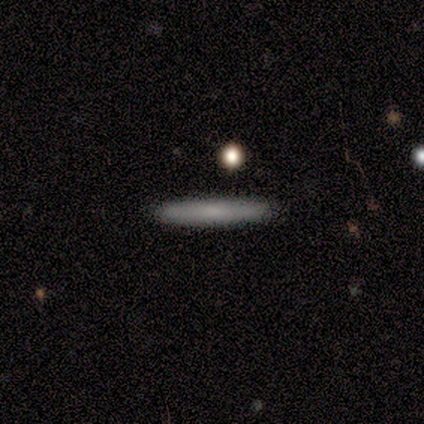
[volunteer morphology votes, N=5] This appears to be a smooth galaxy with no disk features (80%) that is cigar-shaped (100%). Merging: none (100%).